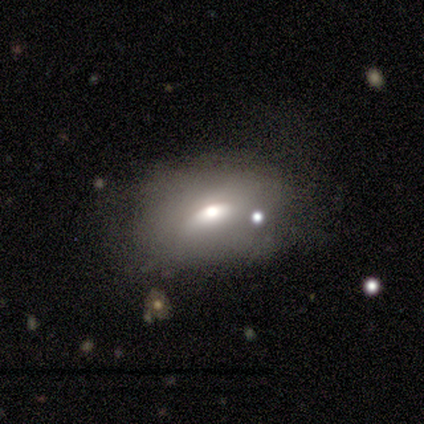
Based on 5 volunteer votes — Smooth or featured? 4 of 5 (80%) said smooth. How rounded? 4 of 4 (100%) said in between. Merging? 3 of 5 (60%) said minor disturbance.